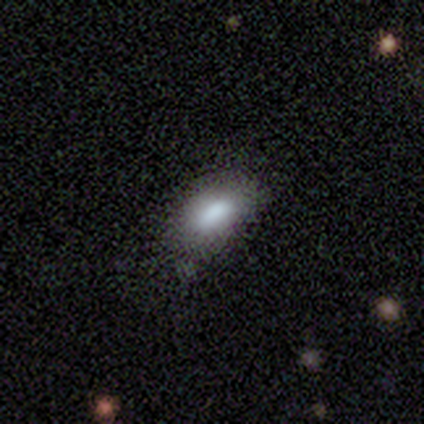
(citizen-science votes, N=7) A smooth galaxy with no disk features (71%) that is in between round and cigar-shaped (100%).

Vote fractions:
- Smooth or featured? smooth: 71% / featured or disk: 29% / star or artifact: 0%
- How rounded? in between: 100% / round: 0% / cigar-shaped: 0%
- Merging? none: 71% / minor disturbance: 29% / major disturbance: 0% / merger: 0%